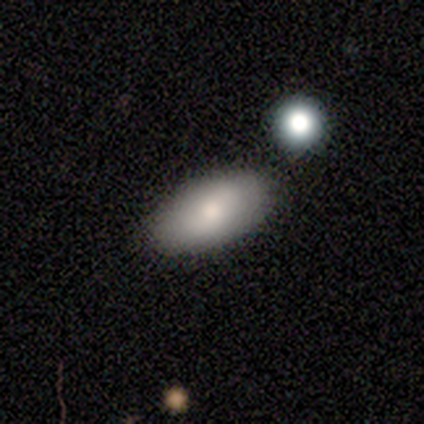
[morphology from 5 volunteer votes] This appears to be a smooth galaxy with no disk features (80%) that is in between round and cigar-shaped (75%). Merging: none (60%).